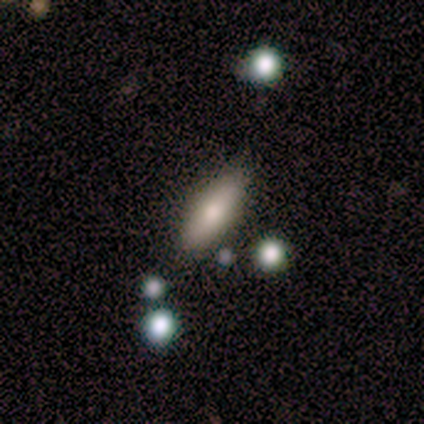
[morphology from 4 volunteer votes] Smooth or featured: smooth — 50% (tied with star or artifact — 50%)
How rounded: in between — 50% (tied with cigar-shaped — 50%)
Merging: none — 100%